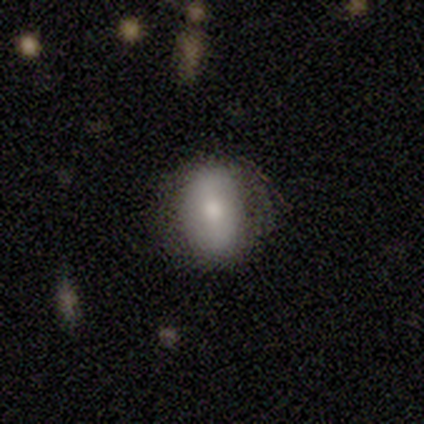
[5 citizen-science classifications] Smooth or featured?
  - smooth: 100% *
  - featured or disk: 0%
  - star or artifact: 0%
How rounded?
  - in between: 80% *
  - round: 20%
  - cigar-shaped: 0%
Merging?
  - none: 60% *
  - minor disturbance: 40%
  - major disturbance: 0%
  - merger: 0%